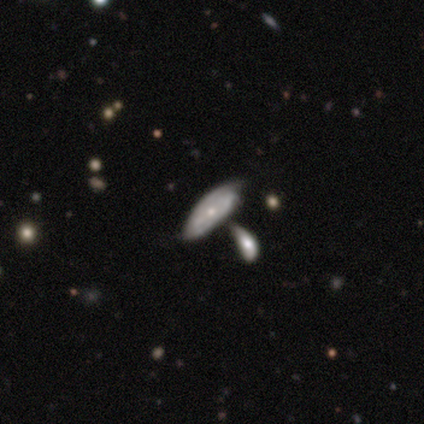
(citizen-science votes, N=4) A featured or disk galaxy (100%) with no bar (75%), 2 (33%, tied with 3 and can't tell) tight (67%) spiral arms (75%) and a small central bulge (100%).

Vote fractions:
- Smooth or featured? featured or disk: 100% / smooth: 0% / star or artifact: 0%
- Edge-on disk? no: 100% / yes: 0%
- Bar? no: 75% / strong: 25% / weak: 0%
- Spiral arms? yes: 75% / no: 25%
- Spiral winding? tight: 67% / medium: 33% / loose: 0%
- Spiral arm count? 2: 33% (tied) / 3: 33% (tied) / can't tell: 33% (tied) / 1: 0% / 4: 0% / more than 4: 0%
- Bulge size? small: 100% / dominant: 0% / large: 0% / moderate: 0% / none: 0%
- Merging? minor disturbance: 50% / none: 25% / merger: 25% / major disturbance: 0%